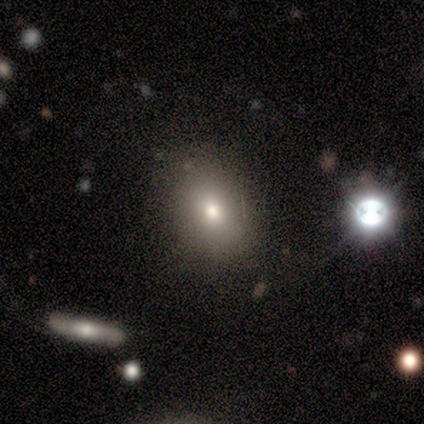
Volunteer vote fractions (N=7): Overall: smooth (71%). How rounded: round (60%; in between 40%). Merging: none (80%).